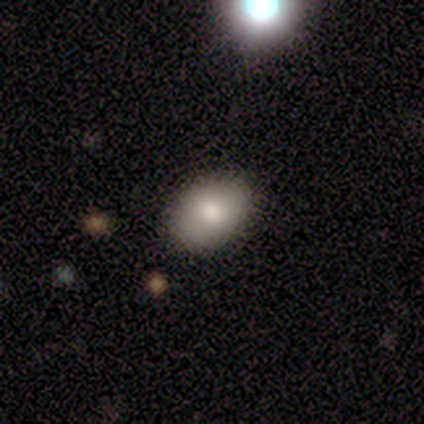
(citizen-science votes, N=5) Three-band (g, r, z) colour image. It shows a smooth galaxy with no disk features (100%) that is in between round and cigar-shaped (80%). Merging: none (100%).